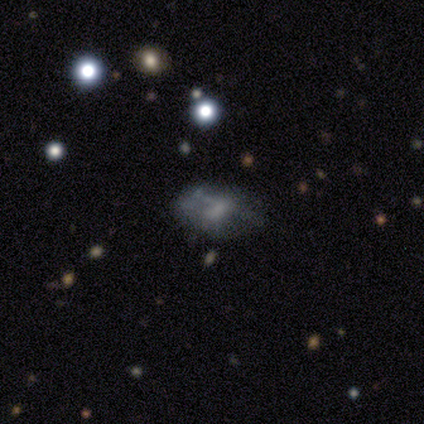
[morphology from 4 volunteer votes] A smooth galaxy with no disk features (75%) that is in between round and cigar-shaped (100%). Merging: none (33%, tied with minor disturbance and major disturbance).